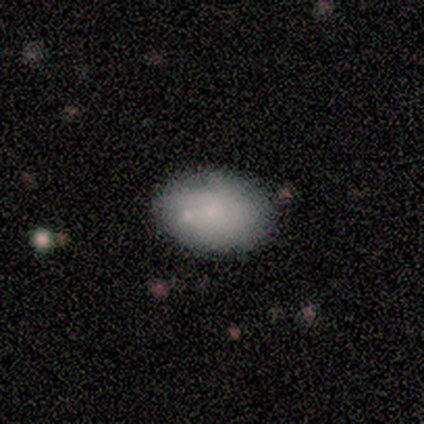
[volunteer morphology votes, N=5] Smooth or featured?
  - smooth: 100% *
  - featured or disk: 0%
  - star or artifact: 0%
How rounded?
  - in between: 100% *
  - round: 0%
  - cigar-shaped: 0%
Merging?
  - none: 60% *
  - minor disturbance: 40%
  - major disturbance: 0%
  - merger: 0%